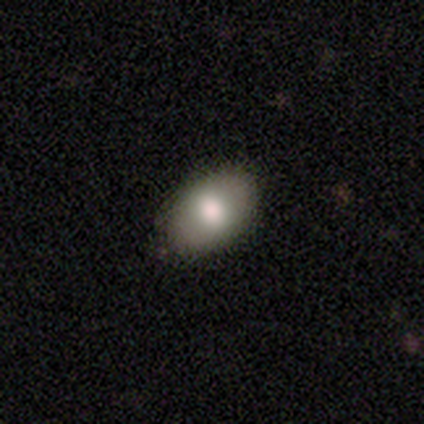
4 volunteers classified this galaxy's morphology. Smooth or featured?
  - smooth: 75% *
  - featured or disk: 25%
  - star or artifact: 0%
How rounded?
  - in between: 100% *
  - round: 0%
  - cigar-shaped: 0%
Merging?
  - none: 75% *
  - minor disturbance: 25%
  - major disturbance: 0%
  - merger: 0%